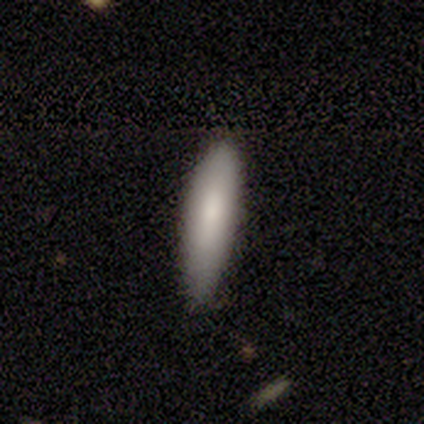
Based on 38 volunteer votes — This is clearly a smooth galaxy (87%). How rounded: likely cigar-shaped (76%). Merging: likely none (76%).